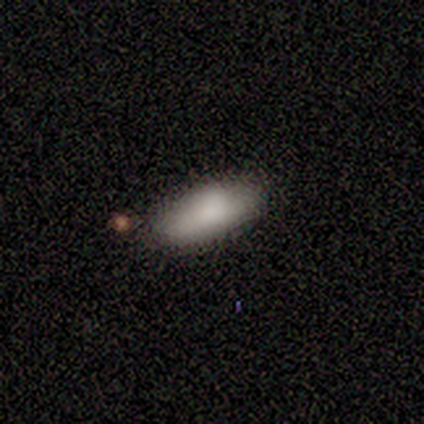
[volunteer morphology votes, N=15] A smooth galaxy with no disk features (87%) that is in between round and cigar-shaped (77%). Merging: none (79%).